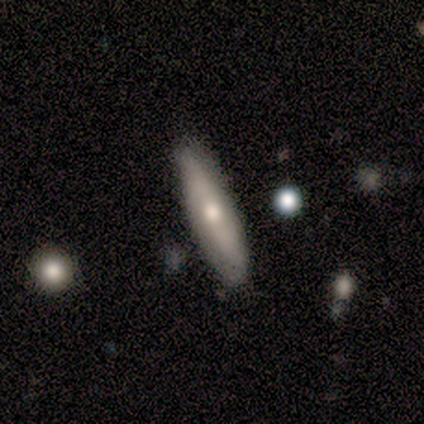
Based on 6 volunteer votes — This is possibly a smooth galaxy (50%, tied with featured or disk). How rounded: clearly cigar-shaped (100%). Merging: clearly none (83%).